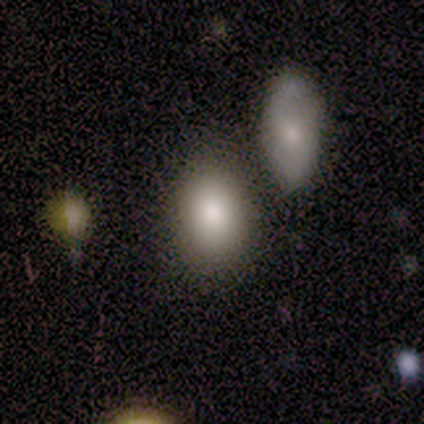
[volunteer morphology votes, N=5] smooth-or-featured: smooth: 80% | featured or disk: 20% | star or artifact: 0%
  how-rounded: round: 50% (tied) | in between: 50% (tied) | cigar-shaped: 0%
  merging: none: 80% | merger: 20% | minor disturbance: 0% | major disturbance: 0%